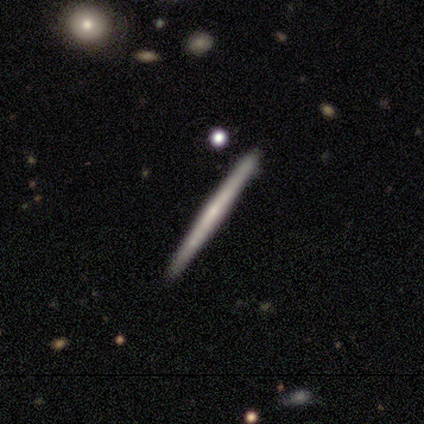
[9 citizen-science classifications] Morphology: type=featured or disk (78%); edge-on=yes (100%); edge-on bulge=none (86%); merging=none (89%).